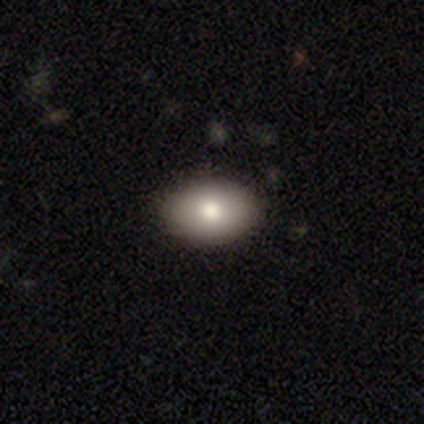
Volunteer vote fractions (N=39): Morphology: type=smooth (85%); roundness=in between (82%); merging=none (89%).